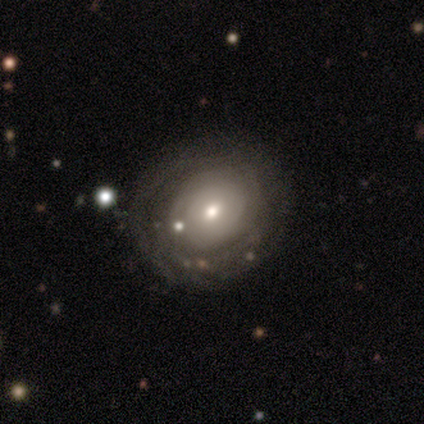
A featured or disk galaxy (57%) with no bar (87%), tight (71%) spiral arms (61%) and a moderate central bulge (48%).

Vote fractions:
- Smooth or featured? featured or disk: 57% / smooth: 36% / star or artifact: 7%
- Edge-on disk? no: 96% / yes: 4%
- Bar? no: 87% / weak: 13% / strong: 0%
- Spiral arms? yes: 61% / no: 39%
- Spiral winding? tight: 71% / medium: 14% / loose: 14%
- Spiral arm count? can't tell: 71% / 2: 21% / 3: 7% / 1: 0% / 4: 0% / more than 4: 0%
- Bulge size? moderate: 48% / small: 43% / dominant: 4% / large: 4% / none: 0%
- Merging? none: 79% / minor disturbance: 13% / major disturbance: 5% / merger: 3%